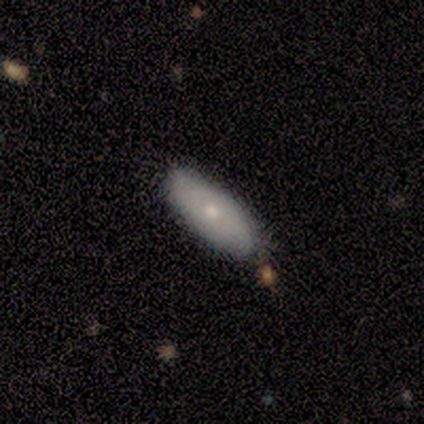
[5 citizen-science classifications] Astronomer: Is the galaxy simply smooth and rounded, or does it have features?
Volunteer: smooth — 60% (runner-up: featured or disk, 40%).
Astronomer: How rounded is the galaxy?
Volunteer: in between — 100%.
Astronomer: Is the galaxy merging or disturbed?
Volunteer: none — 100%.